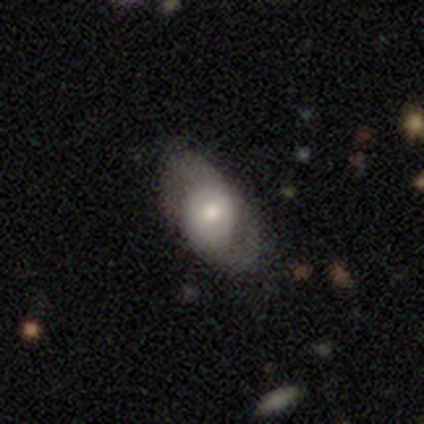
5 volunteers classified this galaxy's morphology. Q: Smooth or featured?
A: smooth (60%); runner-up: featured or disk (20%)
Q: How rounded?
A: in between (67%); runner-up: round (33%)
Q: Merging?
A: none (50%); tied with: major disturbance (50%)